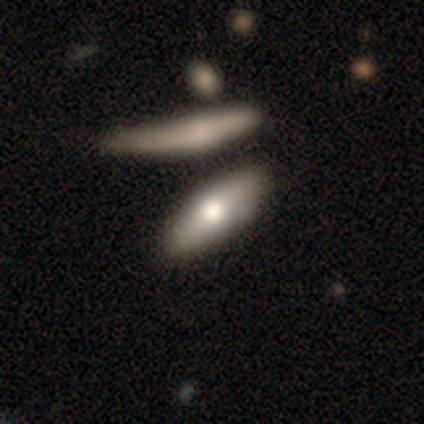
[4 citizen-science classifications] Smooth or featured: smooth — 50% (tied with star or artifact — 50%)
How rounded: in between — 50% (tied with cigar-shaped — 50%)
Merging: none — 100%